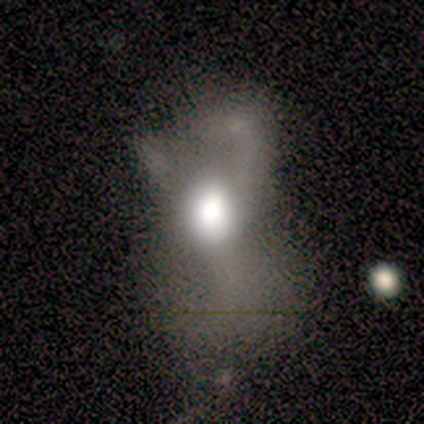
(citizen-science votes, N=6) Smooth or featured: featured or disk — 67% (smooth — 17%)
Edge-on disk: no — 100%
Bar: no — 100%
Spiral arms: no — 100%
Bulge size: dominant — 75% (moderate — 25%)
Merging: major disturbance — 100%